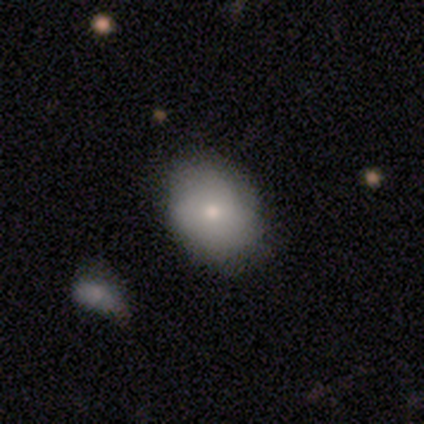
Smooth or featured?
  - smooth: 62% *
  - featured or disk: 38%
  - star or artifact: 0%
How rounded?
  - in between: 79% *
  - round: 21%
  - cigar-shaped: 0%
Merging?
  - none: 59% *
  - minor disturbance: 13%
  - merger: 5%
  - major disturbance: 0%